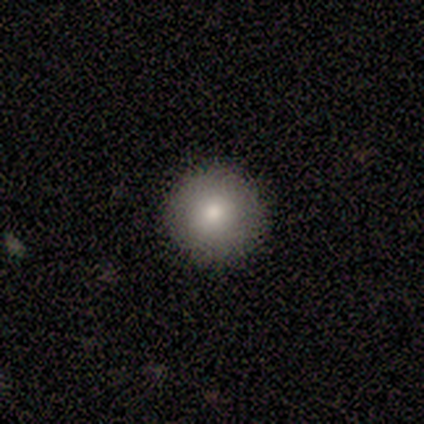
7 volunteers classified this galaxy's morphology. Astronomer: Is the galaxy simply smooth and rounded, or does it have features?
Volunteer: smooth — 100%.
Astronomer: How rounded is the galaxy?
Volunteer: round — 86%.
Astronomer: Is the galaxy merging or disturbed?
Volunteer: none — 86%.